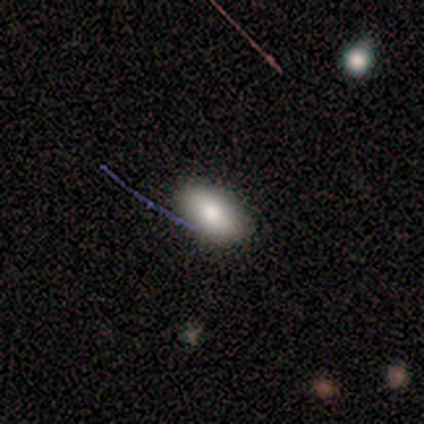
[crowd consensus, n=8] smooth-or-featured: smooth: 62% | featured or disk: 38% | star or artifact: 0%
  how-rounded: in between: 100% | round: 0% | cigar-shaped: 0%
  merging: none: 88% | minor disturbance: 12% | major disturbance: 0% | merger: 0%